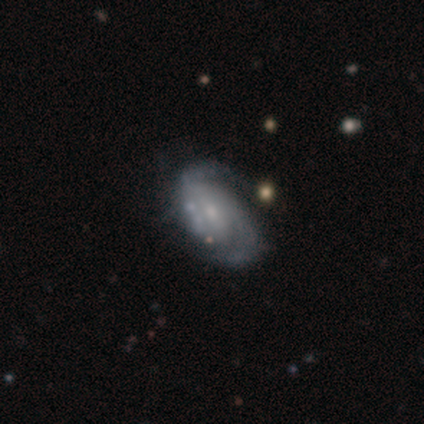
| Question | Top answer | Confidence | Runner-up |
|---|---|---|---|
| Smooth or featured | featured or disk | 95% | smooth (5%) |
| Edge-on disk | no | 97% | yes (3%) |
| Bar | weak | 50% | no (44%) |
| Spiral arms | yes | 94% | no (6%) |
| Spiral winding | medium | 62% | tight (21%) |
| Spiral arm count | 2 | 82% | can't tell (9%) |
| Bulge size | small | 67% | moderate (28%) |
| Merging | none | 38% | minor disturbance (18%) |